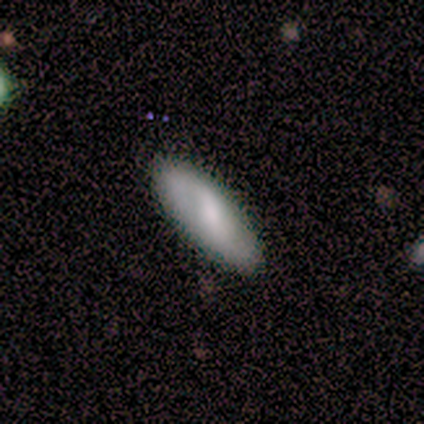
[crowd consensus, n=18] Smooth or featured?
  - smooth: 78% *
  - featured or disk: 22%
  - star or artifact: 0%
How rounded?
  - in between: 64% *
  - cigar-shaped: 36%
  - round: 0%
Merging?
  - none: 89% *
  - minor disturbance: 11%
  - major disturbance: 0%
  - merger: 0%